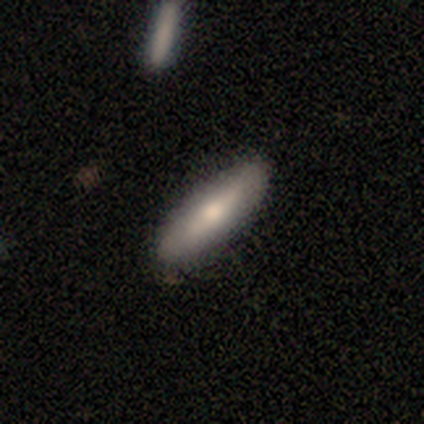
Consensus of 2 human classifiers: Morphology: type=smooth (50%, tied with featured or disk); roundness=in between (100%); merging=none (50%, tied with major disturbance).